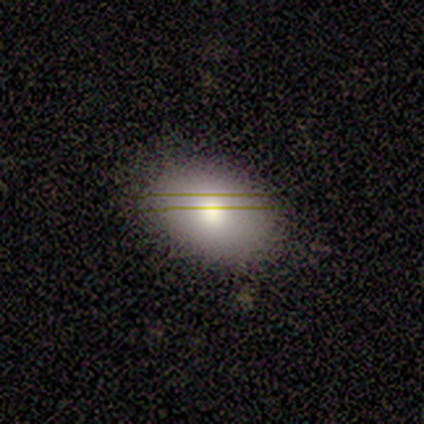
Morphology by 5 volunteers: Smooth or featured? 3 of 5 (60%) said smooth. How rounded? 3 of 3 (100%) said in between. Merging? 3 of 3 (100%) said none.